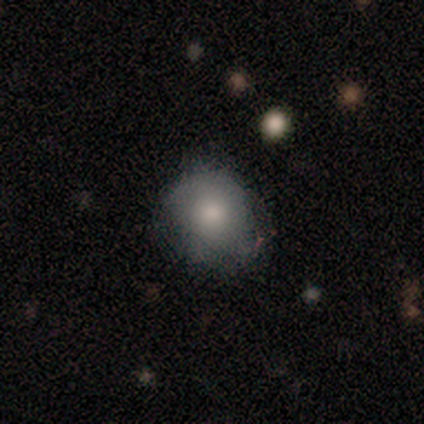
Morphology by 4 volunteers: This is clearly a smooth galaxy (100%). How rounded: likely round (75%). Merging: likely none (75%).